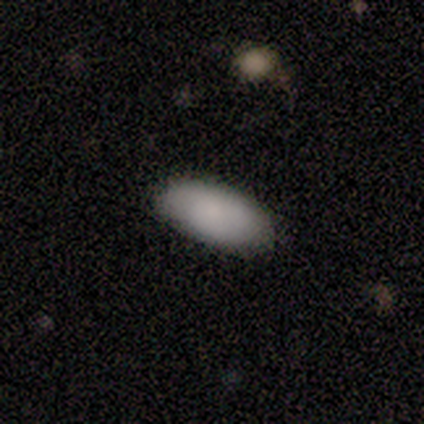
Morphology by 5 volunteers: type=smooth (80%); roundness=in between (100%); merging=none (100%).